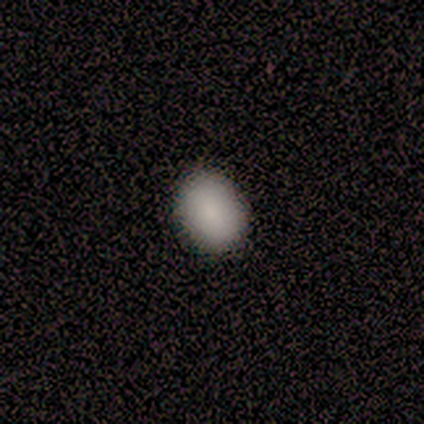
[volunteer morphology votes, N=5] A smooth galaxy with no disk features (80%) that is round (75%). Merging: none (100%).